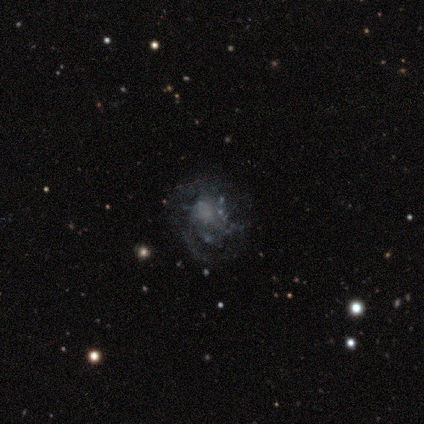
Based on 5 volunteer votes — Smooth or featured? 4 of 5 (80%) said featured or disk. Edge-on disk? 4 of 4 (100%) said no. Bar? 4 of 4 (100%) said no. Spiral arms? 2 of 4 (50%, tied with no) said yes. Spiral winding? 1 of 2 (50%, tied with medium) said tight. Spiral arm count? 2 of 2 (100%) said can't tell. Bulge size? 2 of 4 (50%, tied with none) said moderate. Merging? 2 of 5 (40%, tied with major disturbance) said none.